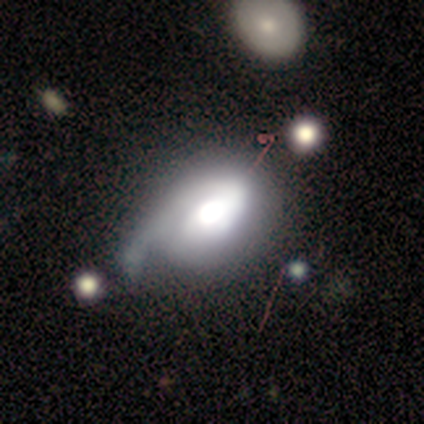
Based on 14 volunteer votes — Overall: smooth (43%, tied with featured or disk). How rounded: in between (83%). Merging: minor disturbance (58%; major disturbance 25%).